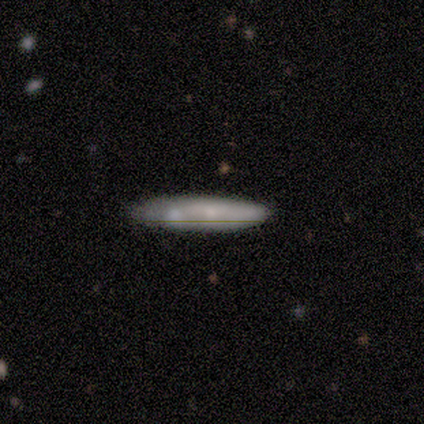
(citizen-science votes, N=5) Smooth or featured? 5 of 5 (100%) said smooth. How rounded? 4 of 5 (80%) said cigar-shaped. Merging? 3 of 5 (60%) said none.